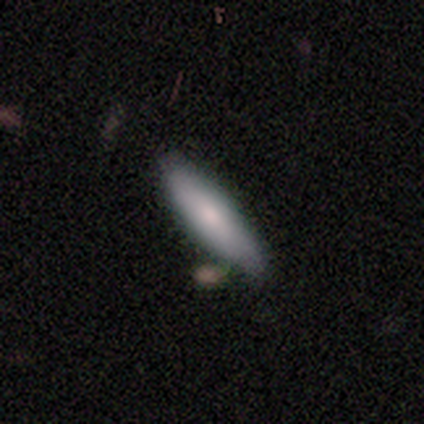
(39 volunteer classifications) Overall: smooth (64%; featured or disk 31%). How rounded: in between (52%; cigar-shaped 48%). Merging: none (62%).